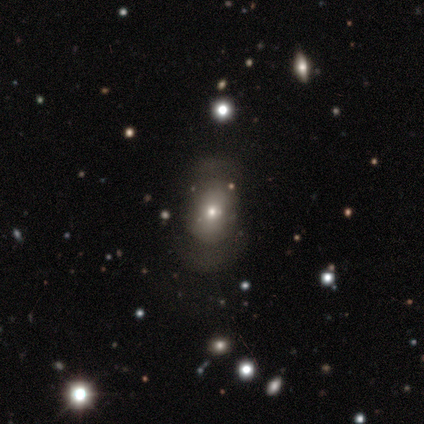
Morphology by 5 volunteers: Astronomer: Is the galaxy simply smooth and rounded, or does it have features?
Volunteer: smooth — 60% (runner-up: featured or disk, 40%).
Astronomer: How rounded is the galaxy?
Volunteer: in between — 67%.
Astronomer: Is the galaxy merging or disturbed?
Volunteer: none — 60%.